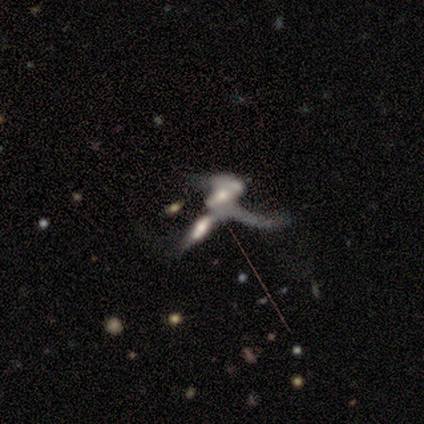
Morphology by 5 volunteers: Smooth or featured?
  - featured or disk: 80% *
  - smooth: 20%
  - star or artifact: 0%
Edge-on disk?
  - no: 100% *
  - yes: 0%
Bar?
  - no: 75% *
  - weak: 25%
  - strong: 0%
Spiral arms?
  - yes: 75% *
  - no: 25%
Spiral winding?
  - loose: 67% *
  - medium: 33%
  - tight: 0%
Spiral arm count?
  - 1: 33% * (tied)
  - 2: 33% * (tied)
  - 3: 33% * (tied)
  - 4: 0%
  - more than 4: 0%
  - can't tell: 0%
Bulge size?
  - moderate: 75% *
  - large: 25%
  - dominant: 0%
  - small: 0%
  - none: 0%
Merging?
  - merger: 100% *
  - none: 0%
  - minor disturbance: 0%
  - major disturbance: 0%